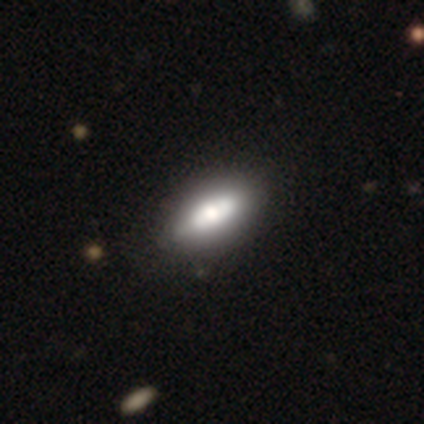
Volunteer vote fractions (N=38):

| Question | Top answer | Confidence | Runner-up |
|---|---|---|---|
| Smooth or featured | smooth | 71% | featured or disk (26%) |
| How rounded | in between | 89% | cigar-shaped (11%) |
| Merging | none | 68% | minor disturbance (5%) |